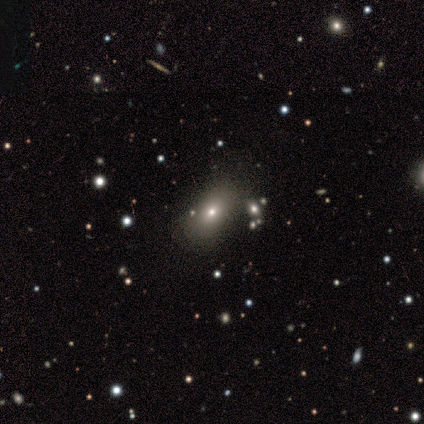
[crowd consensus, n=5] Morphology: type=star or artifact (60%).